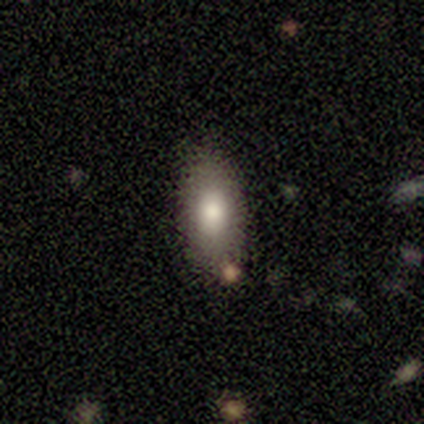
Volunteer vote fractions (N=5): Q: Smooth or featured?
A: smooth (100%)
Q: How rounded?
A: in between (100%)
Q: Merging?
A: none (100%)